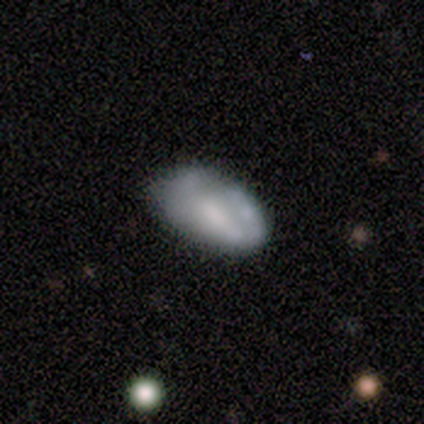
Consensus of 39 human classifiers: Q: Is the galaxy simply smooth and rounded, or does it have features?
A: smooth — 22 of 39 (56%).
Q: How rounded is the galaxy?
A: in between — 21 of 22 (95%).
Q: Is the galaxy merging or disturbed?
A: none — 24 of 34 (71%).